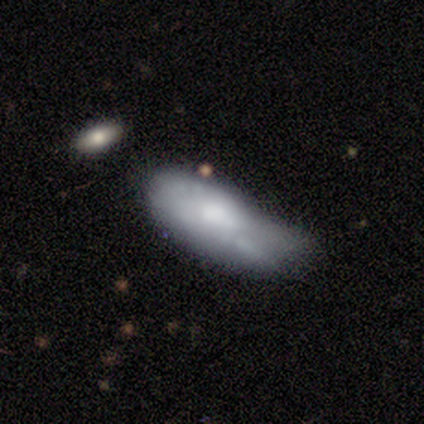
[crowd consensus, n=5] A featured or disk galaxy (80%) with no bar (75%), no spiral arms (75%) and a small central bulge (75%).

Vote fractions:
- Smooth or featured? featured or disk: 80% / smooth: 20% / star or artifact: 0%
- Edge-on disk? no: 100% / yes: 0%
- Bar? no: 75% / weak: 25% / strong: 0%
- Spiral arms? no: 75% / yes: 25%
- Bulge size? small: 75% / moderate: 25% / dominant: 0% / large: 0% / none: 0%
- Merging? major disturbance: 40% (tied) / merger: 40% (tied) / minor disturbance: 20% / none: 0%